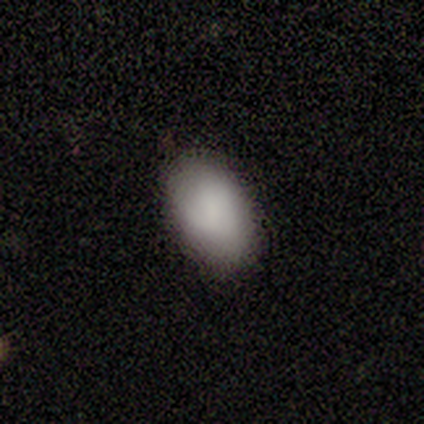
This is clearly a smooth galaxy (100%). How rounded: clearly in between (100%). Merging: likely none (60%).